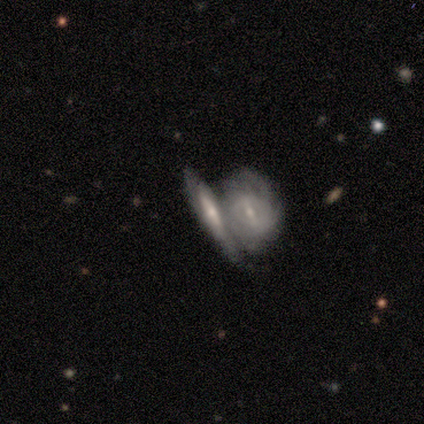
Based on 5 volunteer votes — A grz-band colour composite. It shows a featured or disk galaxy (80%) viewed edge-on (75%) with a rounded central bulge (100%). Merging: merger (100%).